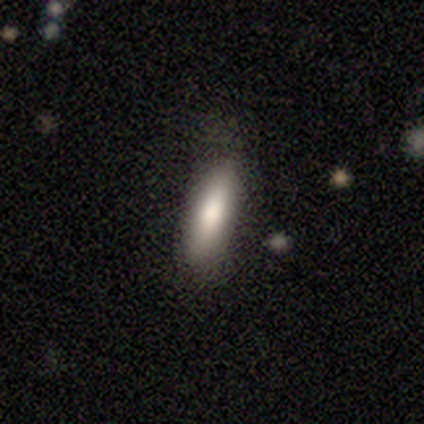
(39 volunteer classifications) smooth_or_featured: smooth (p=0.74) [alt: featured or disk p=0.18]
how_rounded: cigar-shaped (p=0.72) [alt: in between p=0.28]
merging: none (p=0.89) [alt: minor disturbance p=0.11]